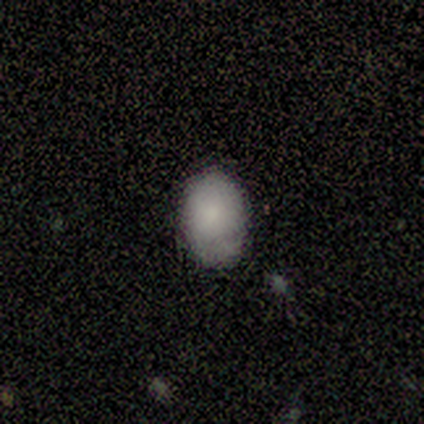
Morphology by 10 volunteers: Smooth or featured? smooth (80%)
How rounded? in between (100%)
Merging? none (67%)